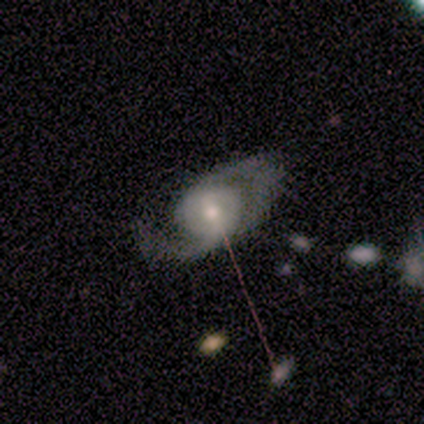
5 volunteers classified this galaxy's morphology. Smooth or featured?
  - featured or disk: 100% *
  - smooth: 0%
  - star or artifact: 0%
Edge-on disk?
  - no: 100% *
  - yes: 0%
Bar?
  - no: 80% *
  - weak: 20%
  - strong: 0%
Spiral arms?
  - yes: 100% *
  - no: 0%
Spiral winding?
  - loose: 60% *
  - tight: 20%
  - medium: 20%
Spiral arm count?
  - 2: 100% *
  - 1: 0%
  - 3: 0%
  - 4: 0%
  - more than 4: 0%
  - can't tell: 0%
Bulge size?
  - moderate: 100% *
  - dominant: 0%
  - large: 0%
  - small: 0%
  - none: 0%
Merging?
  - none: 100% *
  - minor disturbance: 0%
  - major disturbance: 0%
  - merger: 0%